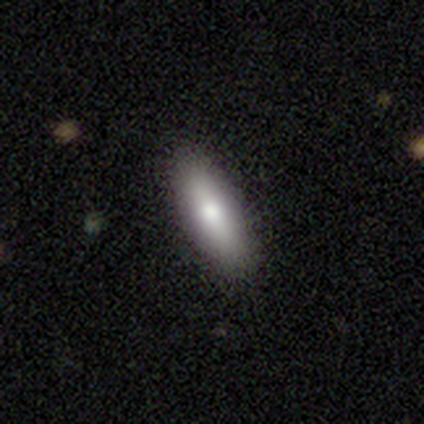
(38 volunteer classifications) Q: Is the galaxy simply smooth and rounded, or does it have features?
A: smooth — 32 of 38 (84%).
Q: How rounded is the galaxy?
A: in between — 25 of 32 (78%).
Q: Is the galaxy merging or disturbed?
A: none — 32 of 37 (86%).